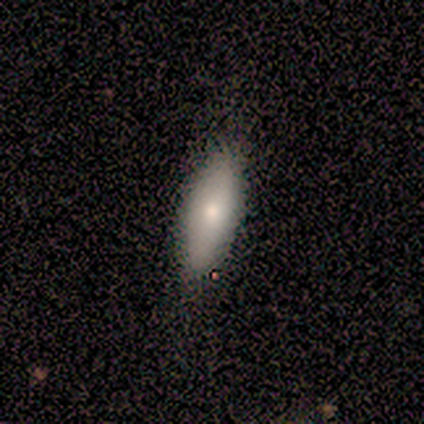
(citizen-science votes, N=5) Overall: smooth (80%). How rounded: in between (75%). Merging: none (80%).